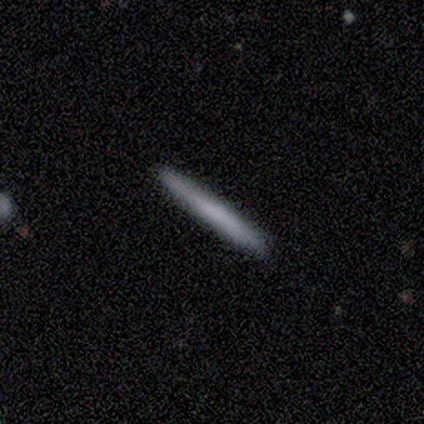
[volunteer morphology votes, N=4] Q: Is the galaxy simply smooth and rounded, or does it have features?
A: smooth — 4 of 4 (100%).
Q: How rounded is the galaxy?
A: cigar-shaped — 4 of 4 (100%).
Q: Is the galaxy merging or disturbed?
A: none — 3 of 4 (75%).